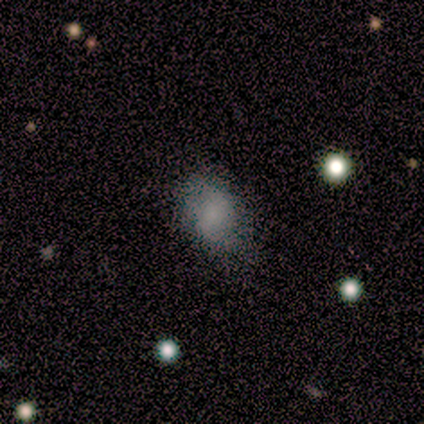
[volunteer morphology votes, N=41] A smooth galaxy with no disk features (76%) that is in between round and cigar-shaped (81%). Merging: none (58%).